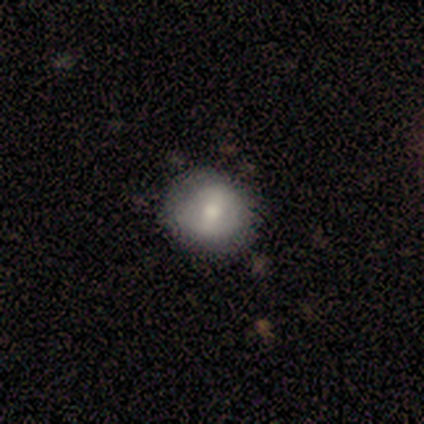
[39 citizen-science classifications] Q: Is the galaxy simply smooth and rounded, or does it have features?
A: smooth — 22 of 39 (56%).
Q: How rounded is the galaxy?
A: round — 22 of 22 (100%).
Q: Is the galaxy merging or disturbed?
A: none — 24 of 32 (75%).